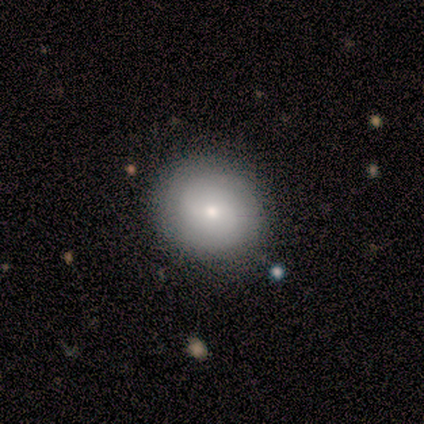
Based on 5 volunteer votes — smooth-or-featured: featured or disk: 80% | smooth: 20% | star or artifact: 0%
  disk-edge-on: no: 100% | yes: 0%
    bar: weak: 50% (tied) | no: 50% (tied) | strong: 0%
    has-spiral-arms: yes: 50% (tied) | no: 50% (tied)
      spiral-winding: medium: 100% | tight: 0% | loose: 0%
      spiral-arm-count: 2: 50% (tied) | can't tell: 50% (tied) | 1: 0% | 3: 0% | 4: 0% | more than 4: 0%
    bulge-size: small: 75% | moderate: 25% | dominant: 0% | large: 0% | none: 0%
  merging: none: 100% | minor disturbance: 0% | major disturbance: 0% | merger: 0%